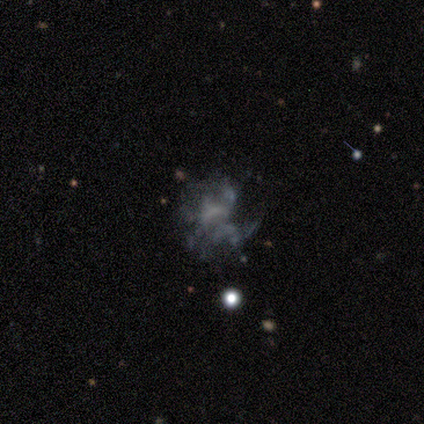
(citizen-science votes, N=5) This appears to be a featured or disk galaxy (60%) with no bar (67%), medium (50%, tied with loose) spiral arms (67%) and no central bulge (67%). Merging: major disturbance (80%).